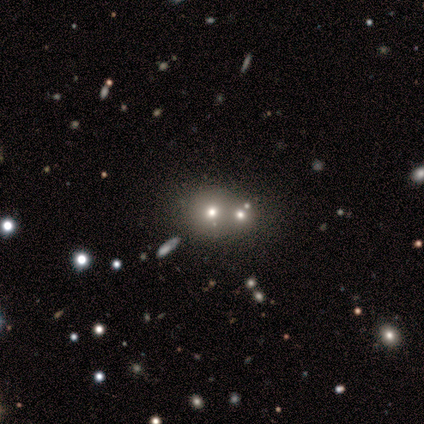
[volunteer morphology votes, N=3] smooth-or-featured: smooth: 67% | featured or disk: 33% | star or artifact: 0%
  how-rounded: round: 100% | in between: 0% | cigar-shaped: 0%
  merging: none: 33% (tied) | minor disturbance: 33% (tied) | merger: 33% (tied) | major disturbance: 0%